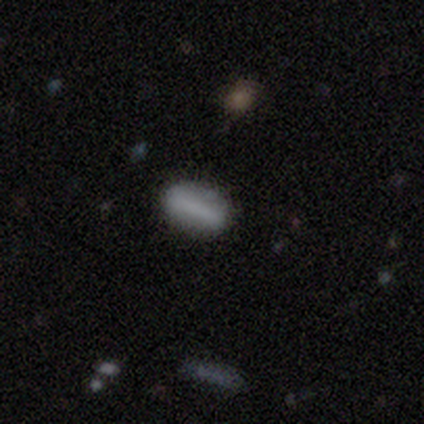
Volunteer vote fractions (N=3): Smooth or featured?
  - smooth: 33% * (tied)
  - featured or disk: 33% * (tied)
  - star or artifact: 33% * (tied)
How rounded?
  - cigar-shaped: 100% *
  - round: 0%
  - in between: 0%
Merging?
  - none: 100% *
  - minor disturbance: 0%
  - major disturbance: 0%
  - merger: 0%